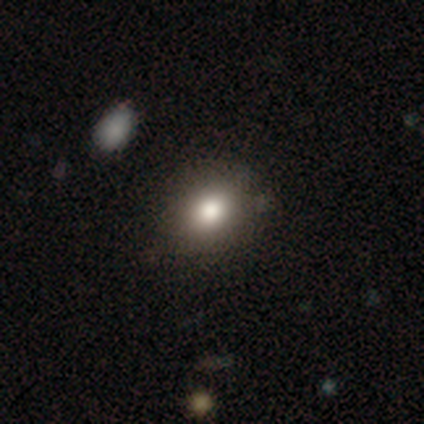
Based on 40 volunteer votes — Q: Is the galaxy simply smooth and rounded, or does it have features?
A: smooth — 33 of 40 (82%).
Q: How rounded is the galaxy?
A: round — 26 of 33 (79%).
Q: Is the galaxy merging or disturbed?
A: none — 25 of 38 (66%).